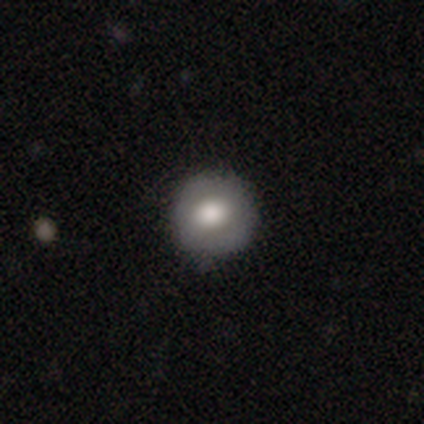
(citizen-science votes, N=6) This appears to be a smooth galaxy with no disk features (100%) that is round (83%). Merging: none (83%).